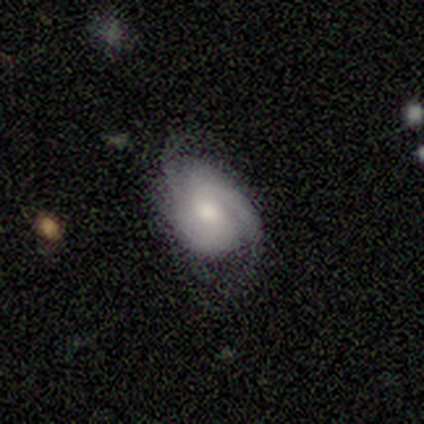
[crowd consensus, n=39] Smooth or featured?
  - featured or disk: 69% *
  - smooth: 23%
  - star or artifact: 8%
Edge-on disk?
  - no: 100% *
  - yes: 0%
Bar?
  - no: 67% *
  - weak: 22%
  - strong: 11%
Spiral arms?
  - yes: 96% *
  - no: 4%
Spiral winding?
  - medium: 54% *
  - tight: 38%
  - loose: 8%
Spiral arm count?
  - 2: 58% *
  - can't tell: 23%
  - 3: 15%
  - 1: 4%
  - 4: 0%
  - more than 4: 0%
Bulge size?
  - moderate: 56% *
  - small: 22%
  - large: 19%
  - none: 4%
  - dominant: 0%
Merging?
  - none: 81% *
  - minor disturbance: 14%
  - major disturbance: 3%
  - merger: 3%